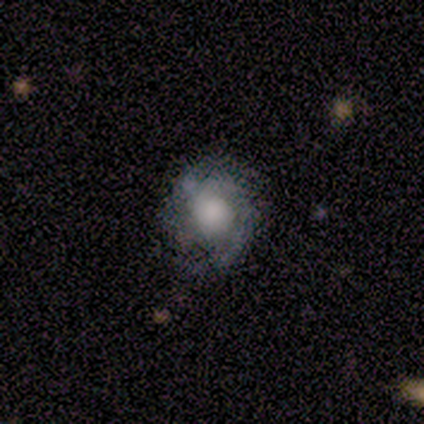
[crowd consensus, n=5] Smooth or featured? featured or disk (100%)
Edge-on disk? no (100%)
Bar? no (100%)
Spiral arms? yes (80%)
Spiral winding? medium (75%)
Spiral arm count? can't tell (75%)
Bulge size? large (40%, tied with none)
Merging? none (80%)